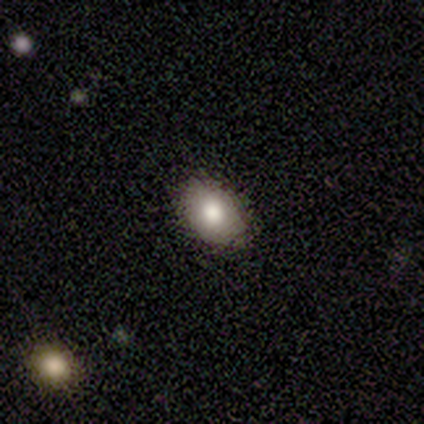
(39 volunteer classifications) Smooth or featured: smooth — 74% (star or artifact — 15%)
How rounded: in between — 86% (round — 14%)
Merging: none — 88% (minor disturbance — 12%)